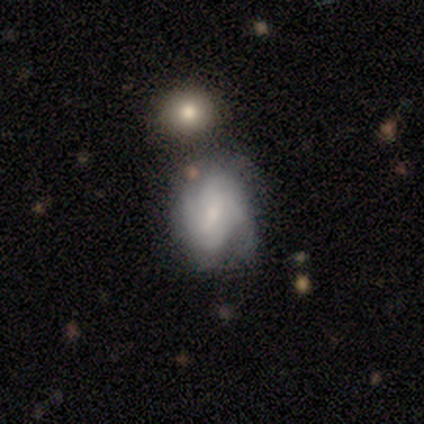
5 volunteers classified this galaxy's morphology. Smooth or featured?
  - featured or disk: 60% *
  - smooth: 20%
  - star or artifact: 20%
Edge-on disk?
  - no: 100% *
  - yes: 0%
Bar?
  - weak: 67% *
  - strong: 33%
  - no: 0%
Spiral arms?
  - yes: 100% *
  - no: 0%
Spiral winding?
  - loose: 67% *
  - tight: 33%
  - medium: 0%
Spiral arm count?
  - 2: 67% *
  - can't tell: 33%
  - 1: 0%
  - 3: 0%
  - 4: 0%
  - more than 4: 0%
Bulge size?
  - moderate: 100% *
  - dominant: 0%
  - large: 0%
  - small: 0%
  - none: 0%
Merging?
  - none: 100% *
  - minor disturbance: 0%
  - major disturbance: 0%
  - merger: 0%